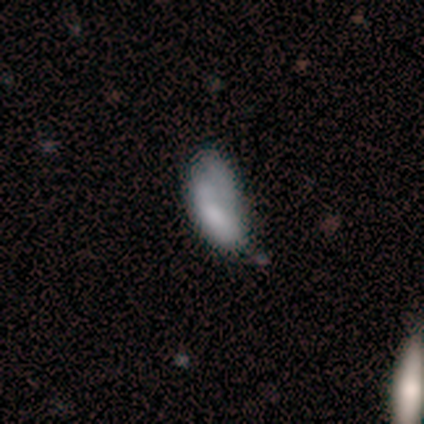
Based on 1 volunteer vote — Overall: smooth (100%). How rounded: in between (100%). Merging: minor disturbance (100%).